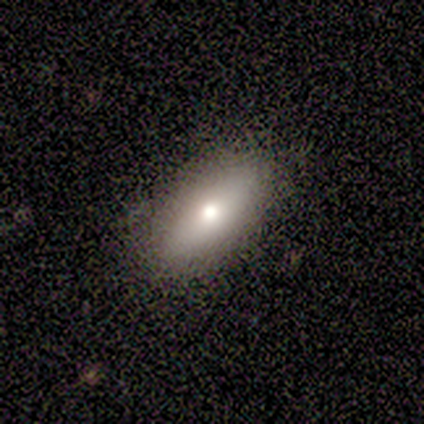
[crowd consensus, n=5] Overall: smooth (100%). How rounded: in between (100%). Merging: none (80%).